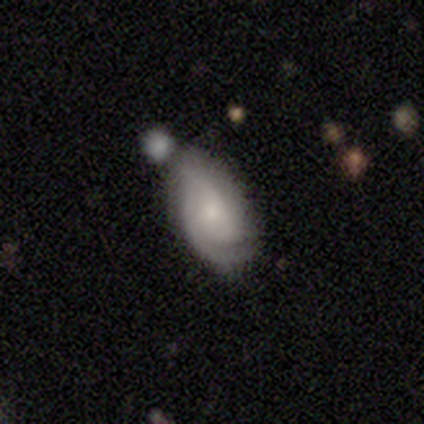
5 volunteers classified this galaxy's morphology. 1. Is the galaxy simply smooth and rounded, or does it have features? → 60% featured or disk, 40% smooth, 0% star or artifact.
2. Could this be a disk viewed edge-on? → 100% no, 0% yes.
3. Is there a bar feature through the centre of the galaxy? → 67% no, 33% weak, 0% strong.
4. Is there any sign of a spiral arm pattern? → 67% yes, 33% no.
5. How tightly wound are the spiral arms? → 100% tight, 0% medium, 0% loose.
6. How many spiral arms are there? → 50% 1 (tied), 50% can't tell (tied), 0% 2, 0% 3, 0% 4, 0% more than 4.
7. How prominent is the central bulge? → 67% small, 33% moderate, 0% dominant, 0% large, 0% none.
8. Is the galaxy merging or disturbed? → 60% none, 40% minor disturbance, 0% major disturbance, 0% merger.